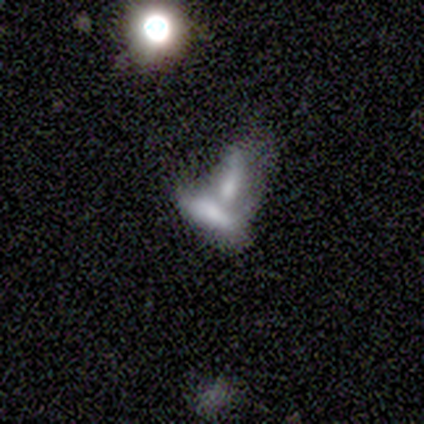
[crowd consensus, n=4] Q: Smooth or featured?
A: smooth (75%); runner-up: star or artifact (25%)
Q: How rounded?
A: in between (100%)
Q: Merging?
A: merger (100%)